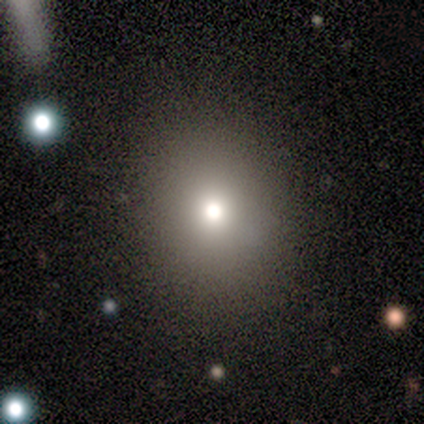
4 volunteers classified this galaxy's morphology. This appears to be a smooth galaxy with no disk features (75%) that is in between round and cigar-shaped (67%). Merging: none (100%).